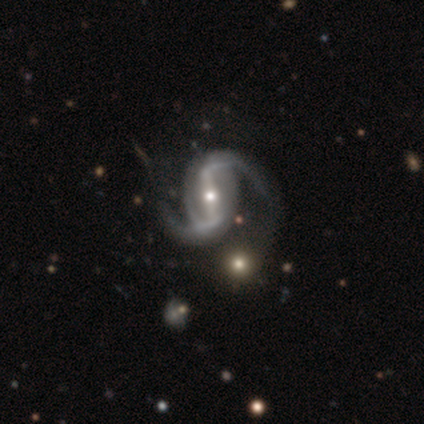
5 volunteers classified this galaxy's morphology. This is clearly a featured or disk galaxy (80%). It is clearly not viewed edge-on (100%). Bar: likely strong (75%). Spiral arm pattern: clearly yes (100%). Spiral arm count: likely 2 (75%). Spiral winding: likely loose (75%). Central bulge: likely small (75%). Merging: possibly minor disturbance (50%).